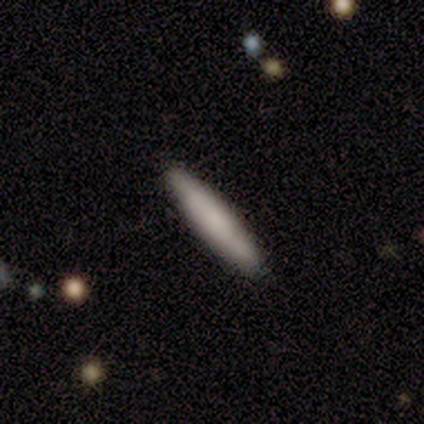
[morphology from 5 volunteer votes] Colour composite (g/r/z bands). It shows a smooth galaxy with no disk features (100%) that is cigar-shaped (60%). Merging: none (100%).